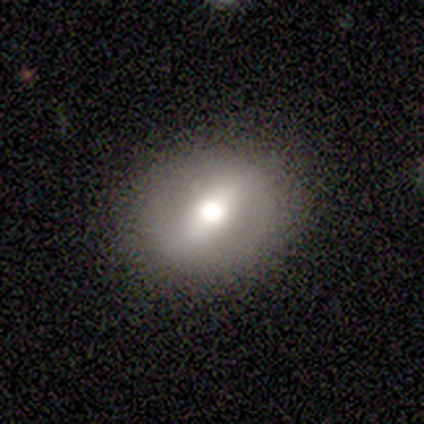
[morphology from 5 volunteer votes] Overall: featured or disk (60%; smooth 40%). Edge-on disk: no (67%; yes 33%). Bar: strong (50%, tied with weak). Spiral arms: no (100%). Bulge size: moderate (100%). Merging: none (60%; minor disturbance 20%).